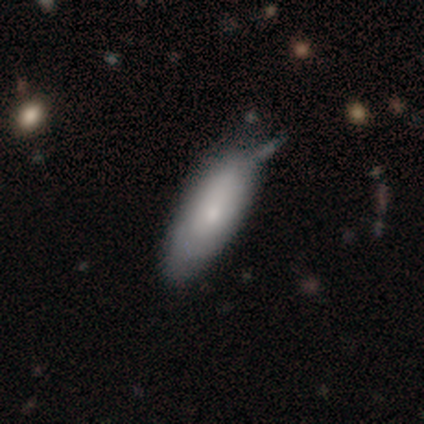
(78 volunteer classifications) smooth 67%, featured or disk 31%, star or artifact 3%. Down the decision tree: how rounded — in between (83%); merging — none (28%).